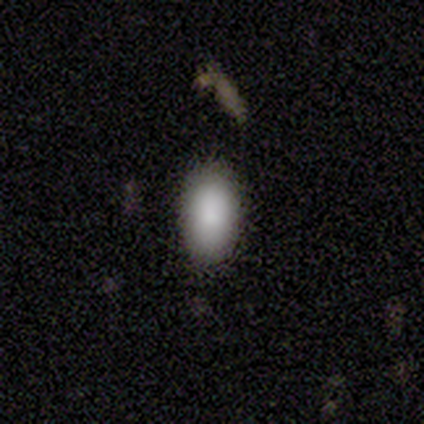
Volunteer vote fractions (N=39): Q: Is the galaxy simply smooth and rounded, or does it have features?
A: smooth — 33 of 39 (85%).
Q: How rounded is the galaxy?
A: in between — 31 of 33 (94%).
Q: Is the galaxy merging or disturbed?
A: none — 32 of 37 (86%).